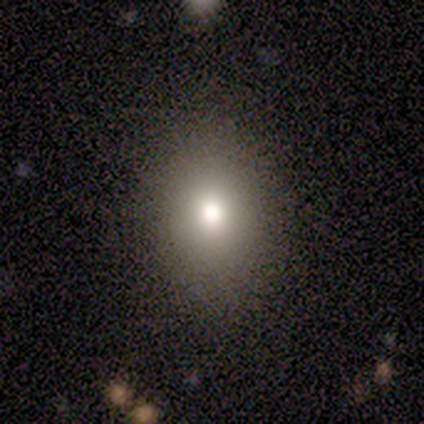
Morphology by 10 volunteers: Smooth or featured: smooth — 50% (featured or disk — 30%)
How rounded: round — 60% (in between — 40%)
Merging: none — 88% (minor disturbance — 12%)